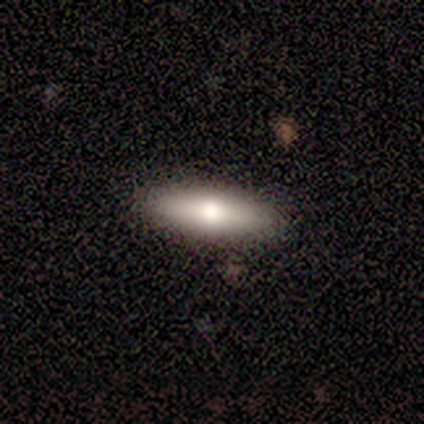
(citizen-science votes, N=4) Smooth or featured? smooth (75%)
How rounded? cigar-shaped (67%)
Merging? none (75%)